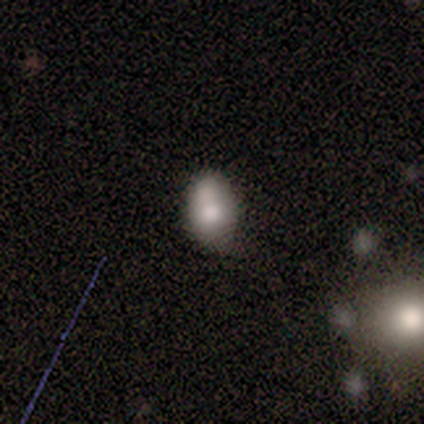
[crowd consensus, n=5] Morphology: type=star or artifact (80%).